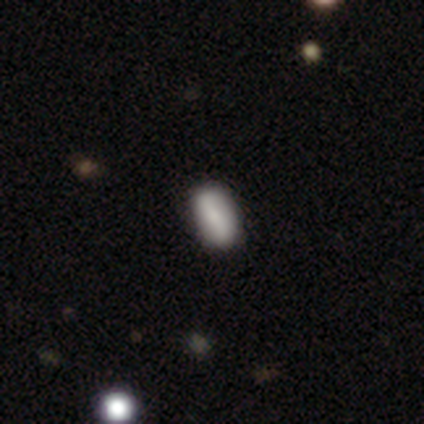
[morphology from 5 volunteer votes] Smooth or featured? 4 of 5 (80%) said smooth. How rounded? 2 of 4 (50%, tied with cigar-shaped) said in between. Merging? 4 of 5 (80%) said none.